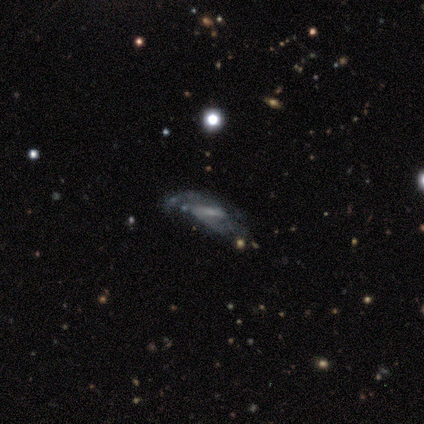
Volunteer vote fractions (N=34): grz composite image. It shows a featured or disk galaxy (56%) with a weak bar (50%), 2 (58%) tight (33%, tied with medium and loose) spiral arms (75%) and a small central bulge (44%). Merging: none (48%).